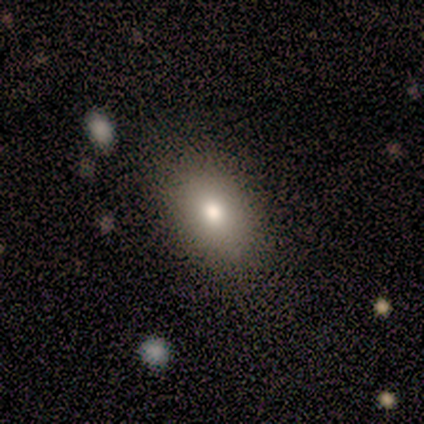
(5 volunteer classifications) A smooth galaxy with no disk features (60%) that is in between round and cigar-shaped (100%).

Vote fractions:
- Smooth or featured? smooth: 60% / featured or disk: 20% / star or artifact: 20%
- How rounded? in between: 100% / round: 0% / cigar-shaped: 0%
- Merging? none: 100% / minor disturbance: 0% / major disturbance: 0% / merger: 0%